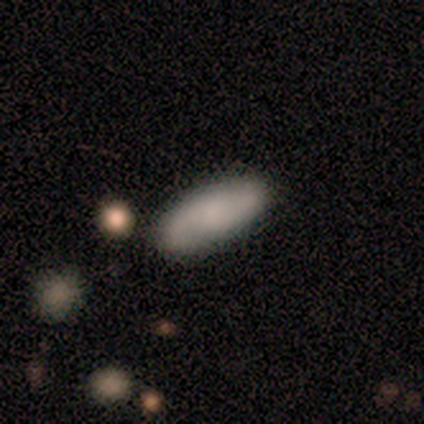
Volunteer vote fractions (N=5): Q: Smooth or featured?
A: smooth (60%); runner-up: featured or disk (40%)
Q: How rounded?
A: in between (100%)
Q: Merging?
A: none (100%)